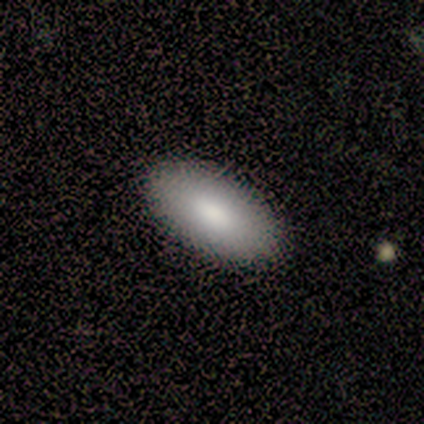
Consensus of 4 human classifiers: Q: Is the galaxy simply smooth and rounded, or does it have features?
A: smooth — 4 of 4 (100%).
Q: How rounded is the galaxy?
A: in between — 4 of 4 (100%).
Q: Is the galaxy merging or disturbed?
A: none — 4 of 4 (100%).